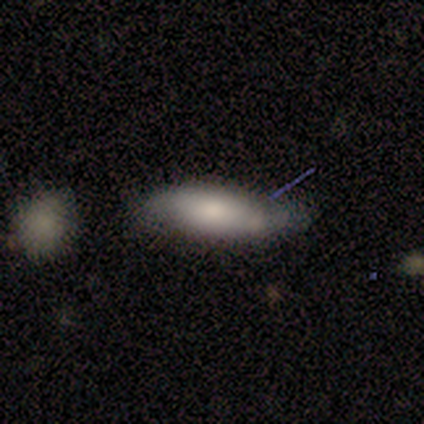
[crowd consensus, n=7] A smooth galaxy with no disk features (100%) that is in between round and cigar-shaped (86%).

Vote fractions:
- Smooth or featured? smooth: 100% / featured or disk: 0% / star or artifact: 0%
- How rounded? in between: 86% / cigar-shaped: 14% / round: 0%
- Merging? minor disturbance: 43% / none: 29% / major disturbance: 29% / merger: 0%